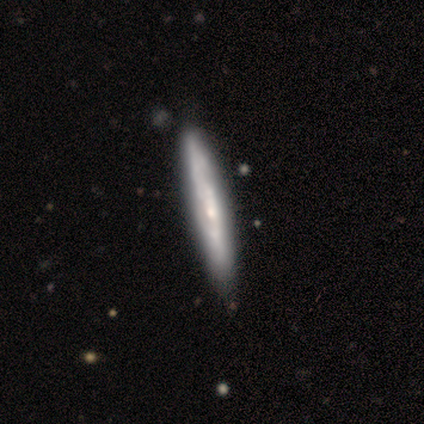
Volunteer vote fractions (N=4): Smooth or featured: featured or disk — 75% (smooth — 25%)
Edge-on disk: yes — 67% (no — 33%)
Edge-on bulge: none — 100%
Merging: none — 75% (minor disturbance — 25%)